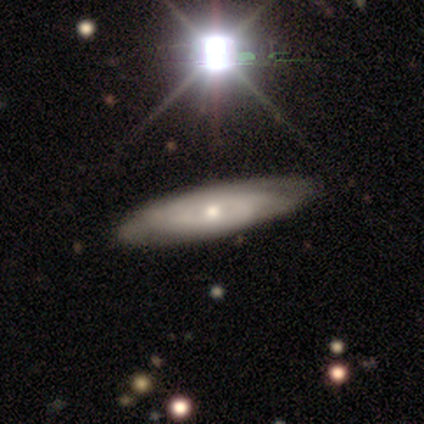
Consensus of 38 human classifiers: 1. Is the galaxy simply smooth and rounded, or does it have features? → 68% featured or disk, 24% smooth, 8% star or artifact.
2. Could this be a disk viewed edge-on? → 77% no, 23% yes.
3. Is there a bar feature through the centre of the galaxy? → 80% no, 15% weak, 5% strong.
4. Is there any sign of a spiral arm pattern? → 60% yes, 40% no.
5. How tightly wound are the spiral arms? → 67% tight, 17% medium, 17% loose.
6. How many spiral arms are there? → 92% can't tell, 8% 4, 0% 1, 0% 2, 0% 3, 0% more than 4.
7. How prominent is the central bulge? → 50% small, 45% moderate, 5% large, 0% dominant, 0% none.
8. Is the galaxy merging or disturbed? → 83% none, 17% minor disturbance, 0% major disturbance, 0% merger.